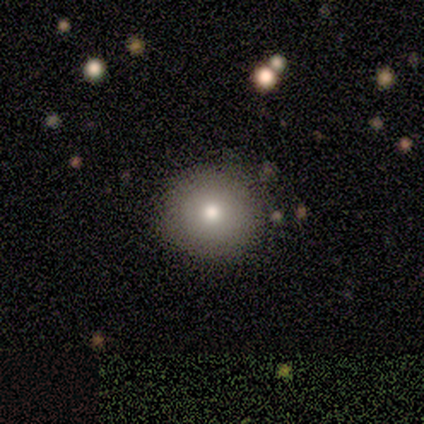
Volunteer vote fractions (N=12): smooth 67%, featured or disk 25%, star or artifact 8%. Down the decision tree: how rounded — round (100%); merging — none (82%).